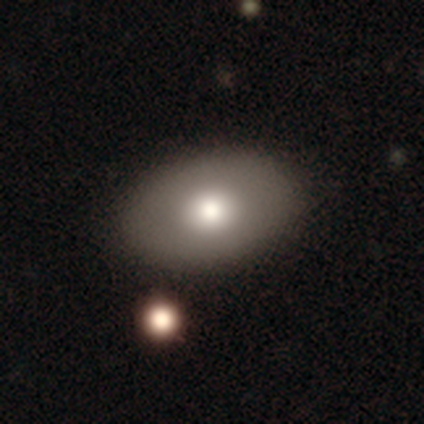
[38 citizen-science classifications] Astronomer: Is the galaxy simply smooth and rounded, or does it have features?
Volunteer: smooth — 74%.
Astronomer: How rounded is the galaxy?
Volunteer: in between — 82%.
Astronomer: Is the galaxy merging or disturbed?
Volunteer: none — 95%.